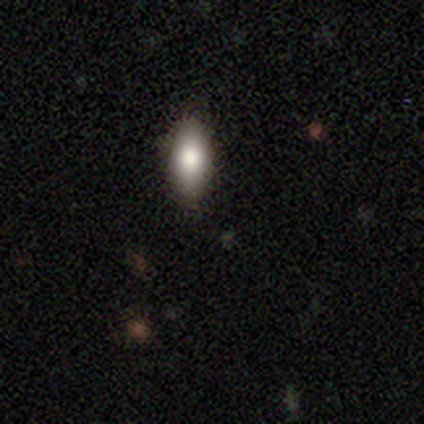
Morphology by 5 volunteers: Smooth or featured?
  - featured or disk: 40% * (tied)
  - star or artifact: 40% * (tied)
  - smooth: 20%
Edge-on disk?
  - yes: 50% * (tied)
  - no: 50% * (tied)
Edge-on bulge?
  - rounded: 100% *
  - boxy: 0%
  - none: 0%
Merging?
  - none: 67% *
  - minor disturbance: 33%
  - major disturbance: 0%
  - merger: 0%